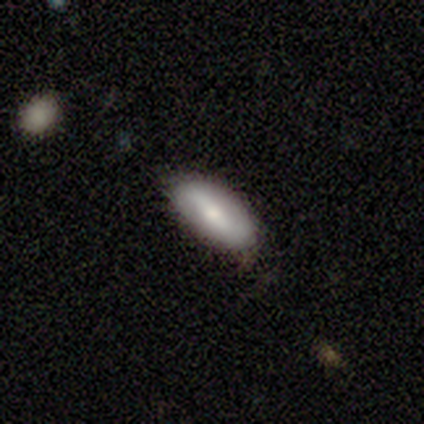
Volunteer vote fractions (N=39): smooth 59%, featured or disk 41%, star or artifact 0%. Down the decision tree: how rounded — in between (100%); merging — none (44%).